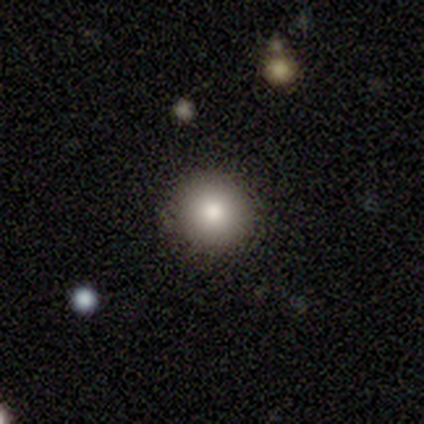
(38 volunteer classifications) Overall: smooth (76%). How rounded: round (97%). Merging: none (94%).